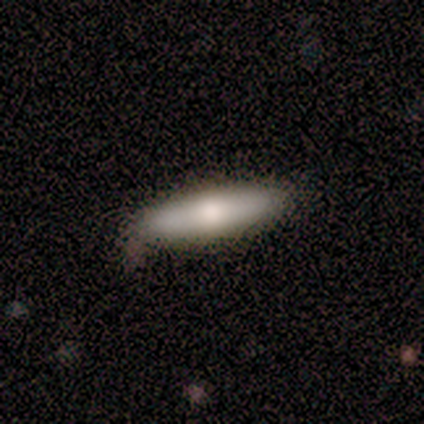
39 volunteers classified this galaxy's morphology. This appears to be a smooth galaxy with no disk features (72%) that is cigar-shaped (64%). Merging: none (82%).